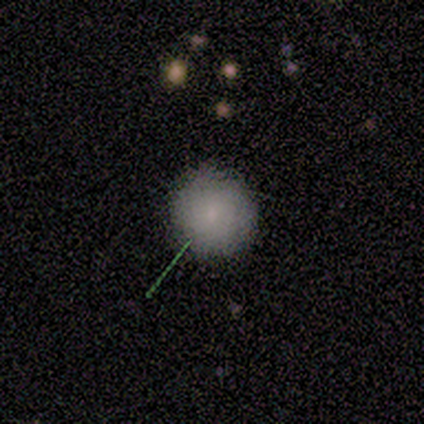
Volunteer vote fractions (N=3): Smooth or featured?
  - smooth: 100% *
  - featured or disk: 0%
  - star or artifact: 0%
How rounded?
  - round: 100% *
  - in between: 0%
  - cigar-shaped: 0%
Merging?
  - none: 100% *
  - minor disturbance: 0%
  - major disturbance: 0%
  - merger: 0%